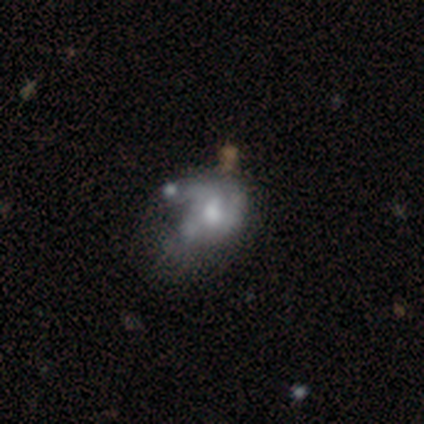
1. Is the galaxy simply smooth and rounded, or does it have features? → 71% featured or disk, 29% smooth, 0% star or artifact.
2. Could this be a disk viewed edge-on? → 96% no, 4% yes.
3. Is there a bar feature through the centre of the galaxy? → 96% no, 4% weak, 0% strong.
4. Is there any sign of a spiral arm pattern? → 65% no, 35% yes.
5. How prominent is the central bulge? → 46% moderate, 19% large, 19% small, 15% none, 0% dominant.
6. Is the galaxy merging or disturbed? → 29% major disturbance, 26% merger, 11% none, 8% minor disturbance.